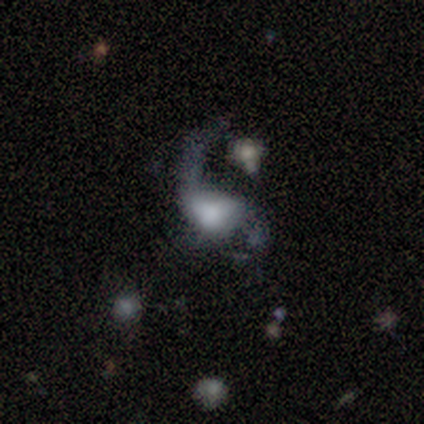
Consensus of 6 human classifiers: smooth_or_featured: smooth (p=0.50) [tied with: featured or disk p=0.50]
how_rounded: in between (p=1.00)
merging: major disturbance (p=1.00)